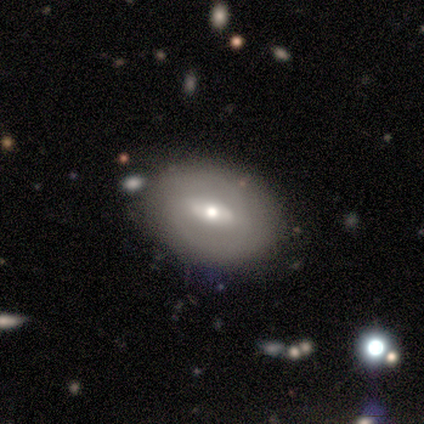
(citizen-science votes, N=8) This is likely a featured or disk galaxy (62%). It is clearly not viewed edge-on (100%). Bar: clearly strong (80%). Spiral arm pattern: clearly no (80%). Central bulge: likely moderate (60%). Merging: likely none (75%).